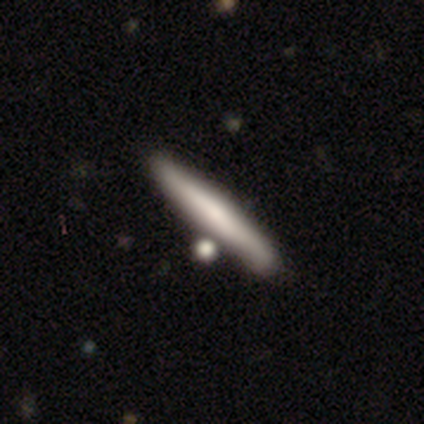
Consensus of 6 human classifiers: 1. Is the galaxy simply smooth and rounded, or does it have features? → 50% featured or disk, 33% star or artifact, 17% smooth.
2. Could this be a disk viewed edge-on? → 100% yes, 0% no.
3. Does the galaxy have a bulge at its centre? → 100% none, 0% boxy, 0% rounded.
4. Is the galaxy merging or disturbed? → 50% none, 25% minor disturbance, 25% merger, 0% major disturbance.